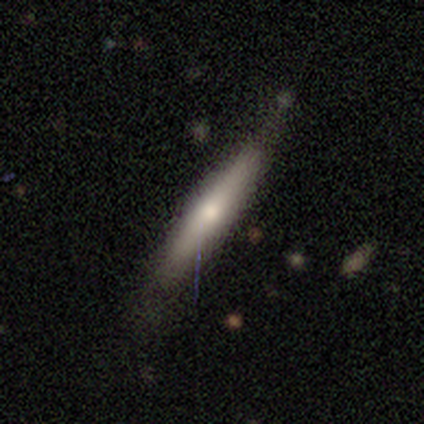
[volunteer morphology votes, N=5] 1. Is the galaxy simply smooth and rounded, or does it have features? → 60% smooth, 20% featured or disk, 20% star or artifact.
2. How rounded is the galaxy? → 100% cigar-shaped, 0% round, 0% in between.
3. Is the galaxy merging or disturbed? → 75% none, 25% minor disturbance, 0% major disturbance, 0% merger.